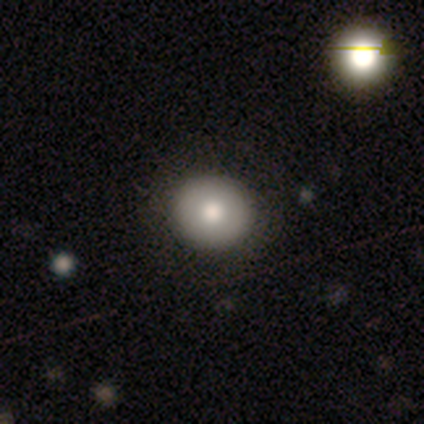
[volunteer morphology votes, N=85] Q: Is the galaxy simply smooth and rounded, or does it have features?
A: smooth — 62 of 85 (73%).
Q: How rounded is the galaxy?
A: round — 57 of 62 (92%).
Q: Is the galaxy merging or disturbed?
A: none — 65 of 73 (89%).